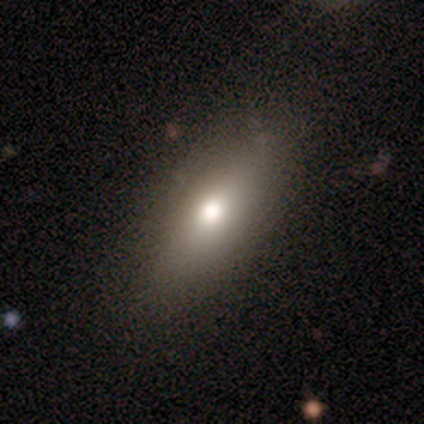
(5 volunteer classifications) smooth-or-featured: smooth: 80% | featured or disk: 20% | star or artifact: 0%
  how-rounded: in between: 50% (tied) | cigar-shaped: 50% (tied) | round: 0%
  merging: none: 60% | minor disturbance: 40% | major disturbance: 0% | merger: 0%